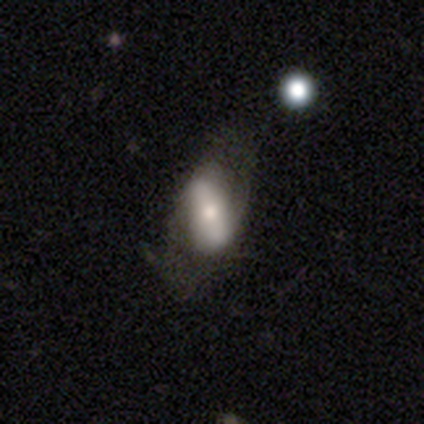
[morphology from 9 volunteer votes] Volunteers were most divided on "merging": none: 44%, minor disturbance: 33%, major disturbance: 11%, merger: 11%. More confident: smooth or featured — smooth (78%); how rounded — in between (71%).